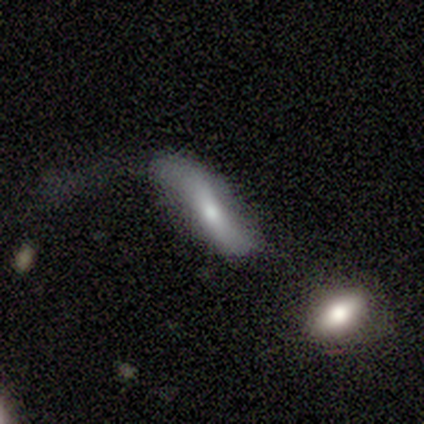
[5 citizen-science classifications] smooth 60%, featured or disk 40%, star or artifact 0%. Down the decision tree: how rounded — in between (67%); merging — none (60%).